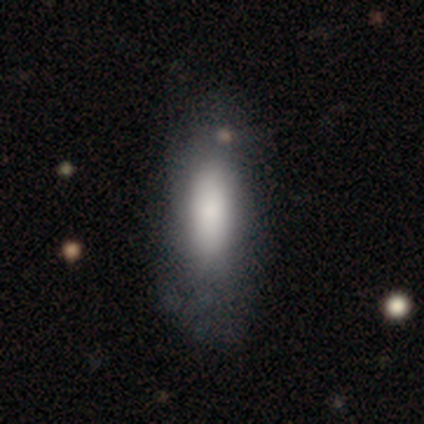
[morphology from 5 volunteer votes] Smooth or featured? 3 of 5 (60%) said smooth. How rounded? 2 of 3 (67%) said cigar-shaped. Merging? 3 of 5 (60%) said none.